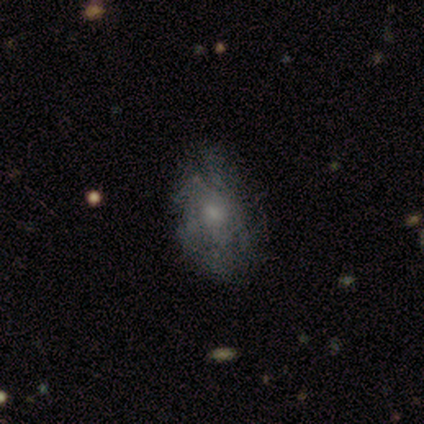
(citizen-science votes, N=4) Volunteers were most divided on "smooth or featured": smooth: 75%, featured or disk: 25%, star or artifact: 0%. More confident: how rounded — in between (100%); merging — none (75%).